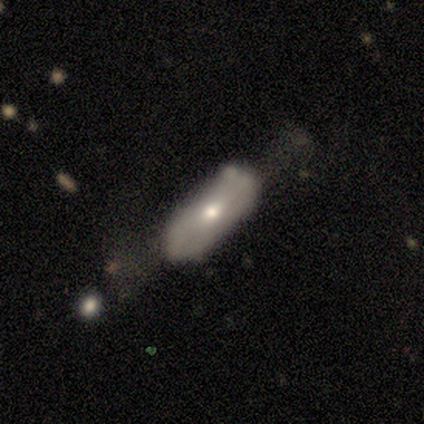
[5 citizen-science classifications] This is likely a smooth galaxy (60%). How rounded: likely in between (67%). Merging: marginally none (40%, tied with major disturbance).